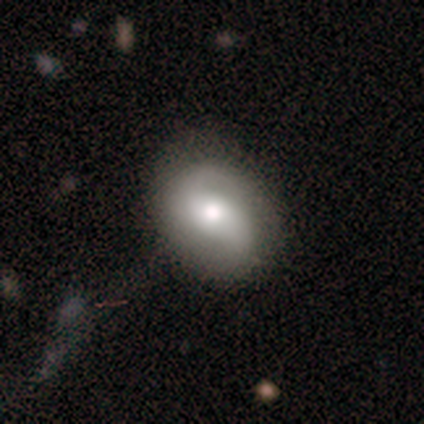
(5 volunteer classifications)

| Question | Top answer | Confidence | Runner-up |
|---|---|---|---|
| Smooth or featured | featured or disk | 60% | smooth (40%) |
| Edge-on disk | no | 100% | — |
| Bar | strong | 33% | tied: weak (33%), no (33%) |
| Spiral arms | yes | 100% | — |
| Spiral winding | tight | 33% | tied: medium (33%), loose (33%) |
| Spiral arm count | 2 | 100% | — |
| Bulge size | small | 67% | moderate (33%) |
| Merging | none | 80% | major disturbance (20%) |